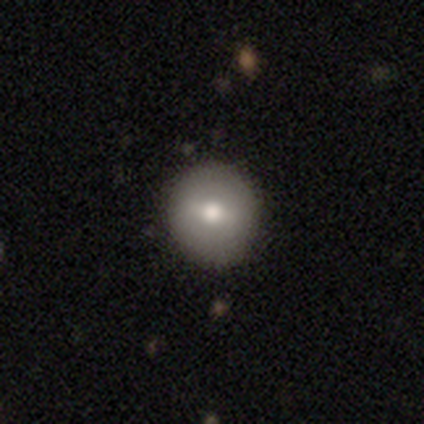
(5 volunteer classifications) Smooth or featured? 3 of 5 (60%) said smooth. How rounded? 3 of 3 (100%) said round. Merging? 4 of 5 (80%) said none.